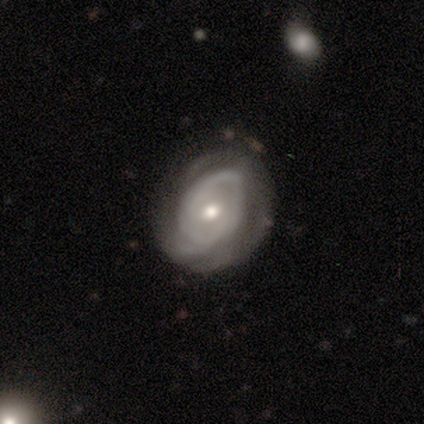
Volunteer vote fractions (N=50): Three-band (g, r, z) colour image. It shows a featured or disk galaxy (86%) with no bar (83%), 2 (48%) tight (55%) spiral arms (74%) and a moderate central bulge (74%). Merging: none (62%).